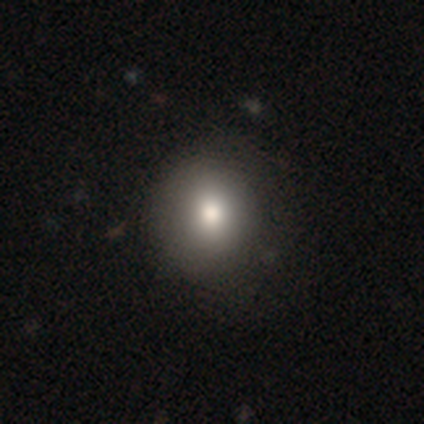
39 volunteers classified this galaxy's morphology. Smooth or featured? 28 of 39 (72%) said smooth. How rounded? 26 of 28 (93%) said round. Merging? 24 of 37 (65%) said none.